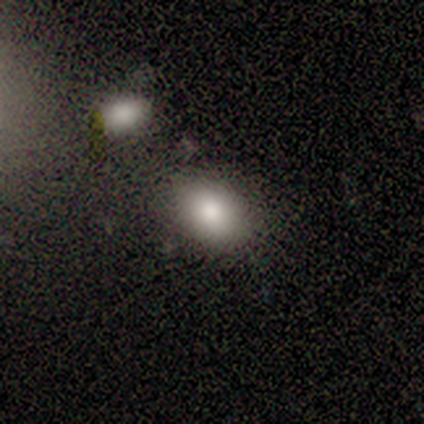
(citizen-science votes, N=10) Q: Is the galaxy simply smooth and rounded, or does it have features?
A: smooth — 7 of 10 (70%).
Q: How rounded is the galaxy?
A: in between — 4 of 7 (57%).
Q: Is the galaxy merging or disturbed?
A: none — 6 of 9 (67%).